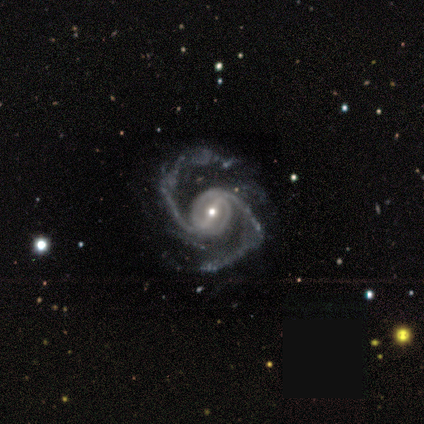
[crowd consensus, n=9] Morphology: type=featured or disk (100%); edge-on=no (100%); bar=weak (67%); spiral arms=yes (100%); winding=medium (67%); arm count=2 (89%); bulge=small (67%); merging=none (44%).